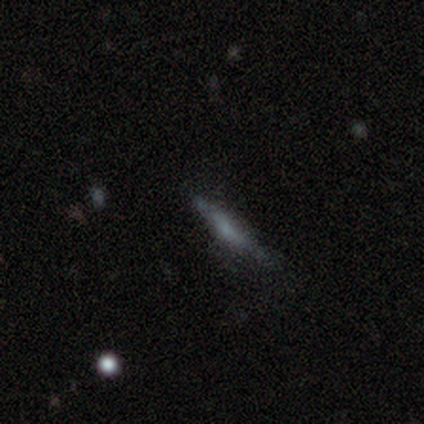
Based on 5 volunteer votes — Overall: smooth (60%; featured or disk 20%). How rounded: cigar-shaped (67%; round 33%). Merging: none (100%).